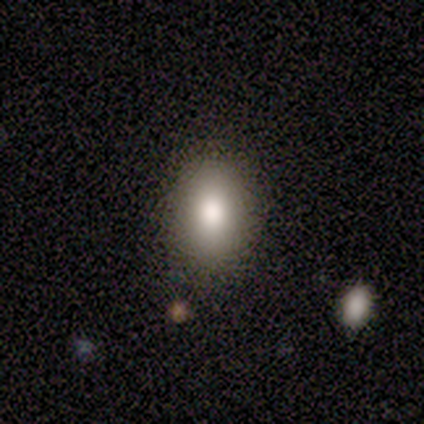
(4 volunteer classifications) smooth 75%, star or artifact 25%, featured or disk 0%. Down the decision tree: how rounded — in between (67%); merging — none (100%).